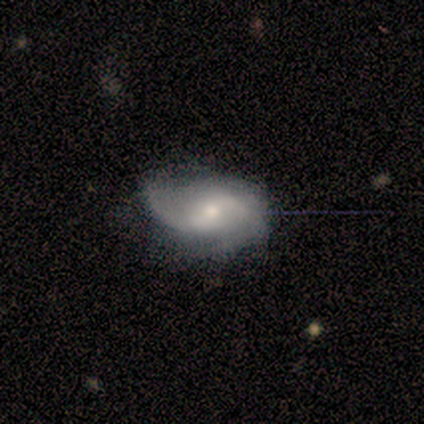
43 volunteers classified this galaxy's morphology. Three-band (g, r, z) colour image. It shows a featured or disk galaxy (86%) with a weak bar (64%), 2 (74%) loose (50%) spiral arms (94%) and a small central bulge (58%). Merging: minor disturbance (45%).